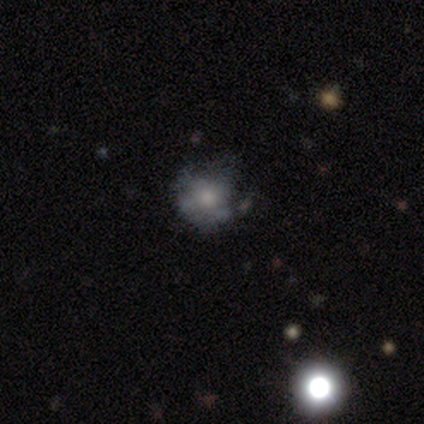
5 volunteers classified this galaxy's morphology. Volunteers were most divided on "merging": minor disturbance: 60%, none: 20%, major disturbance: 20%, merger: 0%. More confident: smooth or featured — smooth (100%); how rounded — round (100%).